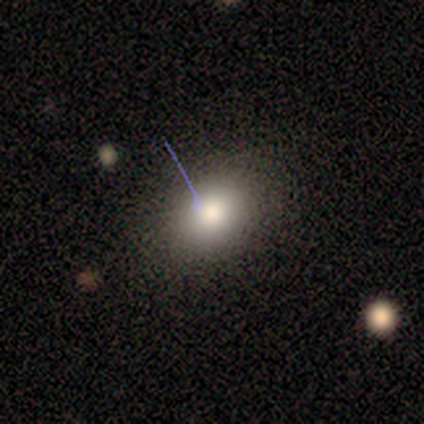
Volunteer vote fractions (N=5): Smooth or featured? 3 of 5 (60%) said smooth. How rounded? 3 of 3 (100%) said round. Merging? 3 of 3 (100%) said none.